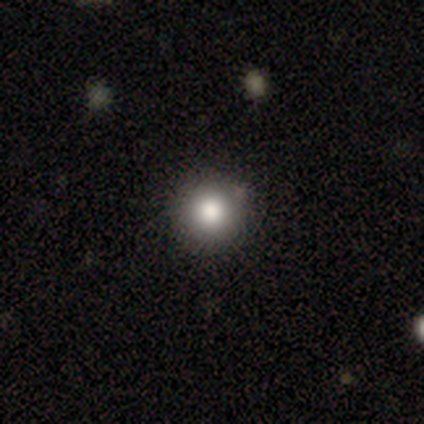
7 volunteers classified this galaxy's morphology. Overall: smooth (86%). How rounded: round (100%). Merging: none (100%).